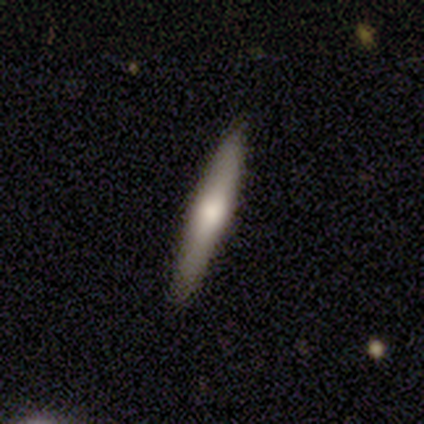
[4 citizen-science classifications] smooth_or_featured: smooth (p=0.75) [alt: featured or disk p=0.25]
how_rounded: cigar-shaped (p=1.00)
merging: none (p=0.75) [alt: minor disturbance p=0.25]